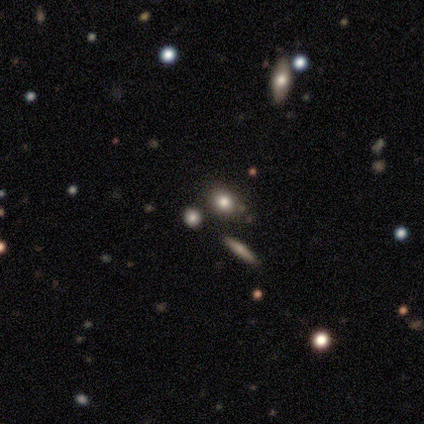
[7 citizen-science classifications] smooth 100%, featured or disk 0%, star or artifact 0%. Down the decision tree: how rounded — round (57%); merging — none (57%).